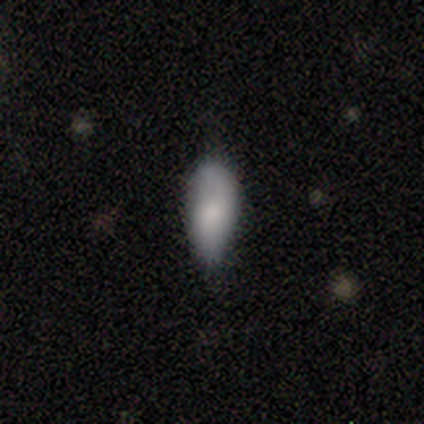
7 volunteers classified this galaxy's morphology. smooth_or_featured: smooth (p=1.00)
how_rounded: in between (p=0.71) [alt: cigar-shaped p=0.29]
merging: minor disturbance (p=0.43) [alt: none p=0.29]